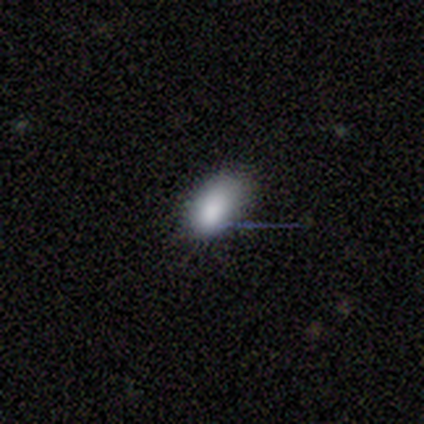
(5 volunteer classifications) Overall: smooth (60%; star or artifact 40%). How rounded: in between (100%). Merging: minor disturbance (67%; none 33%).